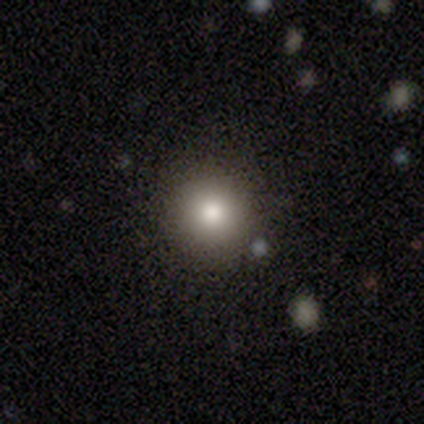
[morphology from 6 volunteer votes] Smooth or featured?
  - smooth: 67% *
  - featured or disk: 17%
  - star or artifact: 17%
How rounded?
  - round: 75% *
  - in between: 25%
  - cigar-shaped: 0%
Merging?
  - none: 80% *
  - minor disturbance: 20%
  - major disturbance: 0%
  - merger: 0%